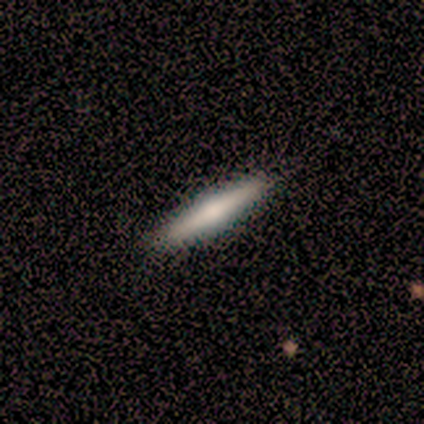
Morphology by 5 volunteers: Overall: smooth (60%; featured or disk 40%). How rounded: cigar-shaped (100%). Merging: none (100%).